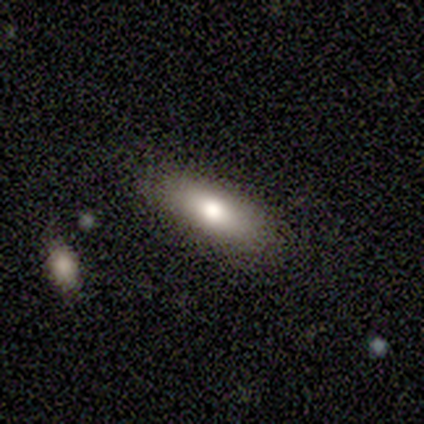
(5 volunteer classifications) Volunteers were most divided on "how rounded": in between: 60%, round: 20%, cigar-shaped: 20%. More confident: smooth or featured — smooth (100%); merging — none (100%).